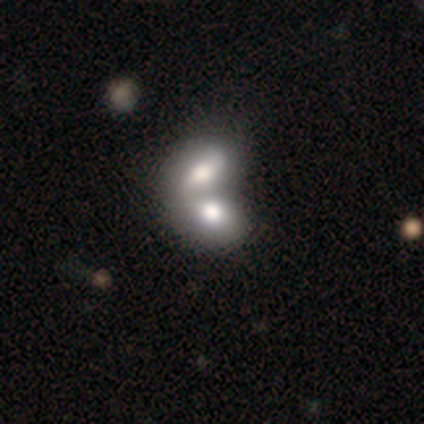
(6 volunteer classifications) A smooth galaxy with no disk features (50%) that is in between round and cigar-shaped (100%). Merging: merger (80%).